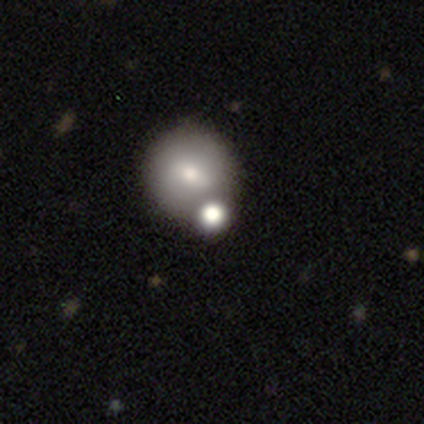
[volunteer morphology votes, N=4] This is clearly a smooth galaxy (100%). How rounded: clearly round (100%). Merging: clearly none (100%).